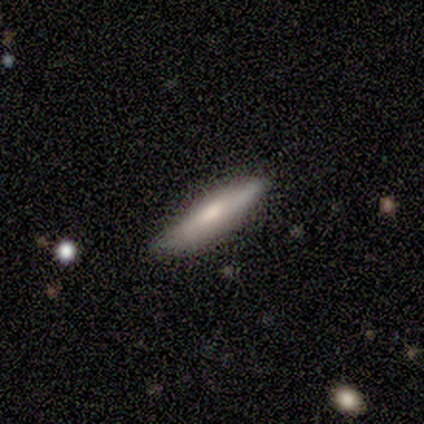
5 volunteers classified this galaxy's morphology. Volunteers were most divided on "edge-on bulge" (2-way tie): boxy: 50%, rounded: 50%, none: 0%. More confident: edge-on disk — yes (67%); smooth or featured — featured or disk (60%); merging — none (60%).